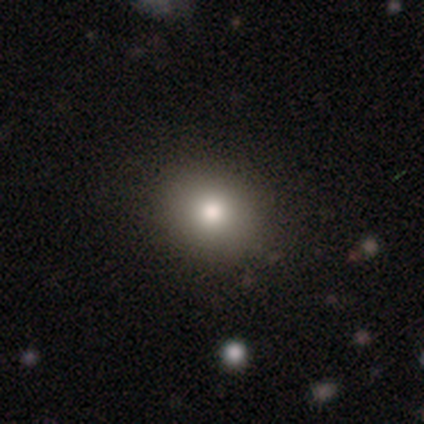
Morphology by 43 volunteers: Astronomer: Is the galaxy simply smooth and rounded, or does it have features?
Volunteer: smooth — 74%.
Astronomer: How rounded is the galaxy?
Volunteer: round — 59% (runner-up: in between, 41%).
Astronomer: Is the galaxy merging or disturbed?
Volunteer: none — 85%.